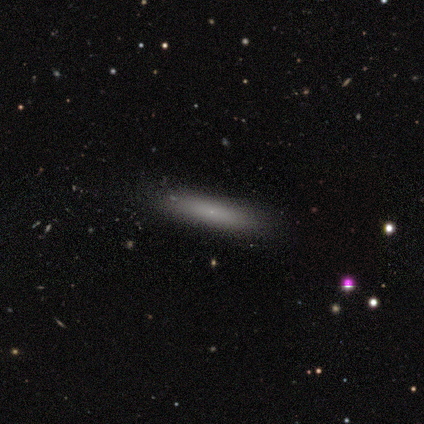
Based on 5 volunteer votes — A smooth galaxy with no disk features (60%) that is cigar-shaped (67%).

Vote fractions:
- Smooth or featured? smooth: 60% / featured or disk: 40% / star or artifact: 0%
- How rounded? cigar-shaped: 67% / in between: 33% / round: 0%
- Merging? none: 80% / minor disturbance: 20% / major disturbance: 0% / merger: 0%